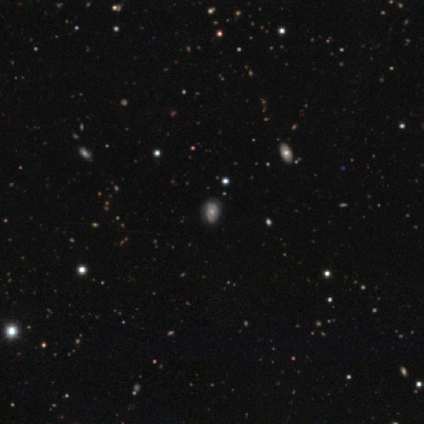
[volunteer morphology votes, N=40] Overall: featured or disk (42%; smooth 40%). Edge-on disk: no (100%). Bar: no (76%). Spiral arms: yes (65%; no 35%). Spiral arm count: can't tell (91%). Spiral winding: tight (73%). Bulge size: moderate (71%). Merging: none (67%).